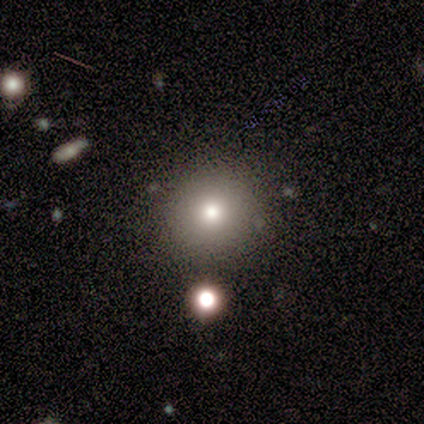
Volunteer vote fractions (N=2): smooth 50% (tied), star or artifact 50% (tied), featured or disk 0%. Down the decision tree: how rounded — round (100%); merging — none (100%).